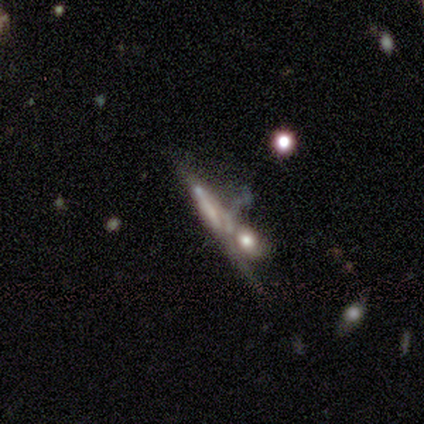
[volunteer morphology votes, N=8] This appears to be a featured or disk galaxy (88%) viewed edge-on (71%) with no central bulge (80%). Merging: merger (43%).